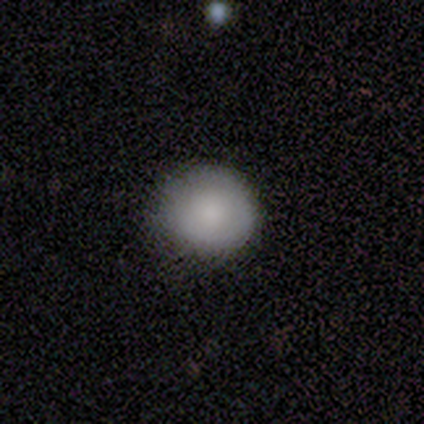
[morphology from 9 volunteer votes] Volunteers were most divided on "smooth or featured": smooth: 56%, featured or disk: 33%, star or artifact: 11%. More confident: how rounded — round (80%); merging — none (75%).